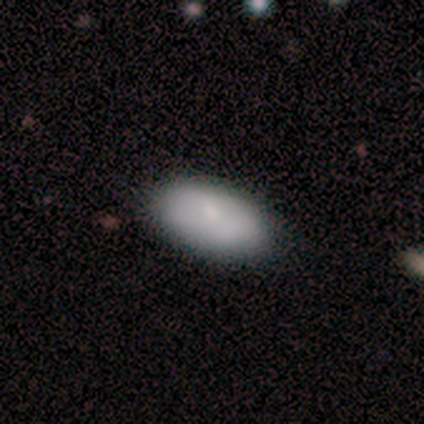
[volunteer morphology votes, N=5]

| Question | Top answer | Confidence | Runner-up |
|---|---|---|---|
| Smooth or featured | smooth | 80% | featured or disk (20%) |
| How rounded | in between | 100% | — |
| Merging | none | 60% | minor disturbance (40%) |